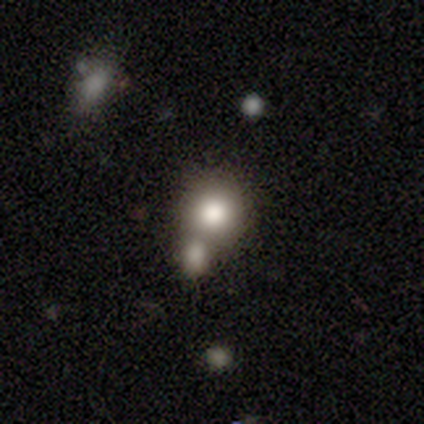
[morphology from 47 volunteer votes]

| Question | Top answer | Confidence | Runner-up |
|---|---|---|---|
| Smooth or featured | smooth | 68% | star or artifact (23%) |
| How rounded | round | 91% | in between (9%) |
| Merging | none | 58% | merger (39%) |